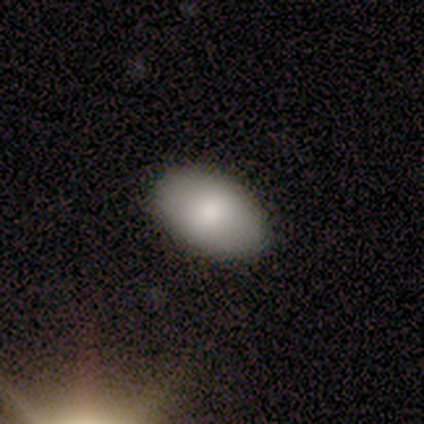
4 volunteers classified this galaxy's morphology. This is clearly a smooth galaxy (100%). How rounded: likely in between (75%). Merging: likely none (75%).